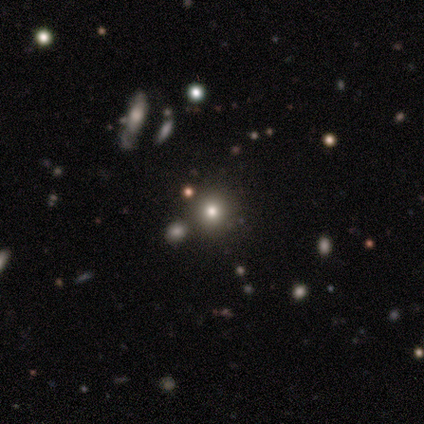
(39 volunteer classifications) Smooth or featured? smooth (54%)
How rounded? round (81%)
Merging? none (84%)